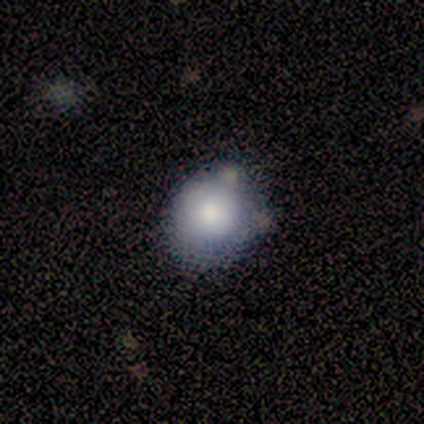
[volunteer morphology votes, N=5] Smooth or featured: smooth — 80% (featured or disk — 20%)
How rounded: round — 100%
Merging: none — 100%